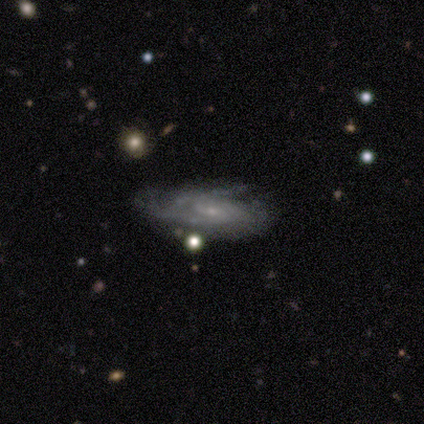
smooth_or_featured: featured or disk (p=0.73) [alt: smooth p=0.27]
disk_edge_on: no (p=0.88) [alt: yes p=0.12]
bar: weak (p=0.43) [tied with: no p=0.43]
has_spiral_arms: yes (p=1.00)
spiral_winding: tight (p=0.57) [alt: medium p=0.43]
spiral_arm_count: can't tell (p=0.57) [alt: 2 p=0.29]
bulge_size: small (p=0.86) [alt: moderate p=0.14]
merging: none (p=0.45) [alt: minor disturbance p=0.36]